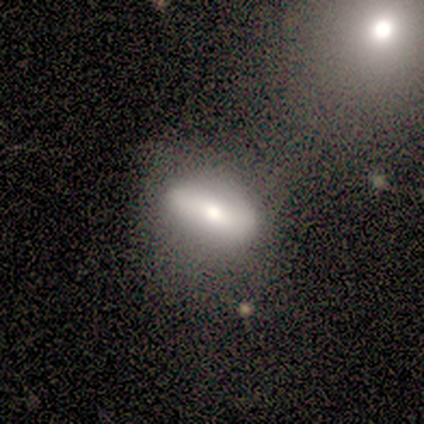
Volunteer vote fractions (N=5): A smooth galaxy with no disk features (60%) that is in between round and cigar-shaped (100%).

Vote fractions:
- Smooth or featured? smooth: 60% / featured or disk: 20% / star or artifact: 20%
- How rounded? in between: 100% / round: 0% / cigar-shaped: 0%
- Merging? none: 50% / minor disturbance: 25% / major disturbance: 25% / merger: 0%